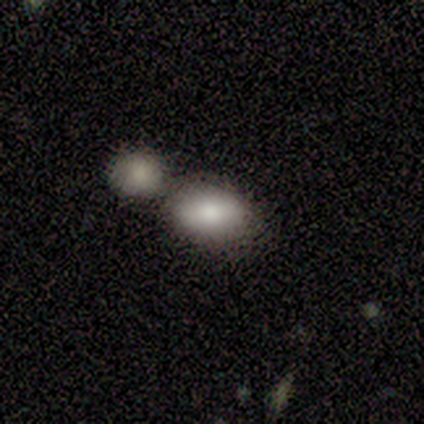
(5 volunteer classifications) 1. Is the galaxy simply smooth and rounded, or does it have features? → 80% smooth, 20% featured or disk, 0% star or artifact.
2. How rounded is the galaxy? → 100% in between, 0% round, 0% cigar-shaped.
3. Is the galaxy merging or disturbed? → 60% merger, 40% none, 0% minor disturbance, 0% major disturbance.